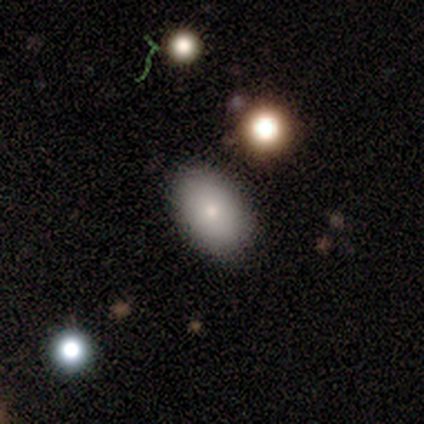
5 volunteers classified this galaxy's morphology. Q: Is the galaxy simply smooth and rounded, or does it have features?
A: smooth — 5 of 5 (100%).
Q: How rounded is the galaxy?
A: in between — 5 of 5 (100%).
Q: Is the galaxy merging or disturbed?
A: none — 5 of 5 (100%).